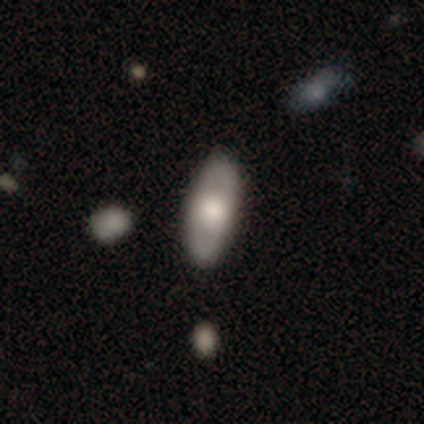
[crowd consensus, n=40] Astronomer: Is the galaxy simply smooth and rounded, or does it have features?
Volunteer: smooth — 57% (runner-up: featured or disk, 38%).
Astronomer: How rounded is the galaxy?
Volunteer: in between — 83%.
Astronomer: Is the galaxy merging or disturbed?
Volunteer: none — 61%.